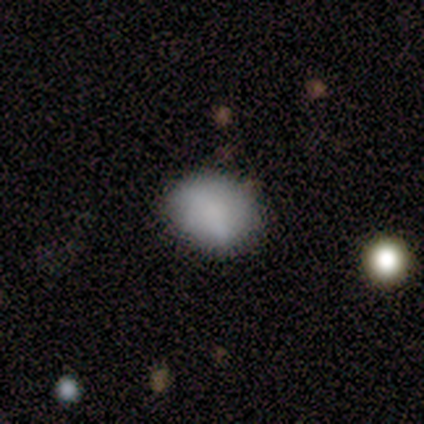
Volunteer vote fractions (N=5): Smooth or featured? smooth (60%)
How rounded? round (67%)
Merging? none (80%)